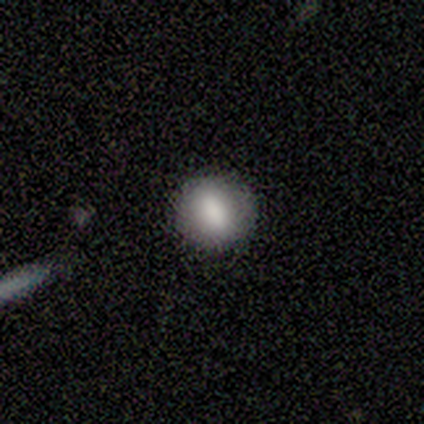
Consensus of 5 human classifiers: A smooth galaxy with no disk features (100%) that is round (100%). Merging: none (100%).